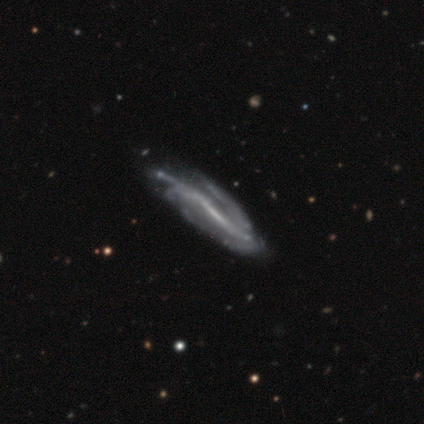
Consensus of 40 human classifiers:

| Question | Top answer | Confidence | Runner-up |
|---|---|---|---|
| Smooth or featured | featured or disk | 95% | star or artifact (5%) |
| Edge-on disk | no | 84% | yes (16%) |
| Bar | strong | 53% | weak (31%) |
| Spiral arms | yes | 94% | no (6%) |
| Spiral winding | tight | 43% | medium (33%) |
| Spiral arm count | can't tell | 53% | 2 (30%) |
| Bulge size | none | 50% | small (41%) |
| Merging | none | 39% | minor disturbance (11%) |